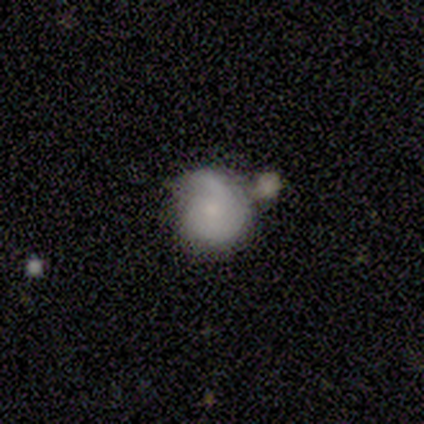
Volunteers were most divided on "how rounded": round: 67%, in between: 33%, cigar-shaped: 0%. More confident: merging — merger (75%); smooth or featured — smooth (60%).